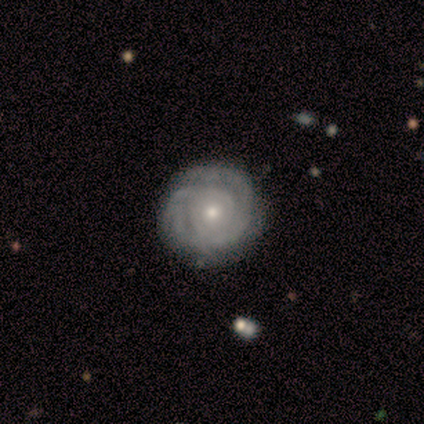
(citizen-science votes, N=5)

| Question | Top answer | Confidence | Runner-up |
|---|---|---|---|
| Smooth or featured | featured or disk | 100% | — |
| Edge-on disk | no | 80% | yes (20%) |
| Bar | weak | 50% | tied: no (50%) |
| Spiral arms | yes | 100% | — |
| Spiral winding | tight | 100% | — |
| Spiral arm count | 3 | 25% | tied: 4 (25%), more than 4 (25%), can't tell (25%) |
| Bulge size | small | 75% | moderate (25%) |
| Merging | none | 100% | — |